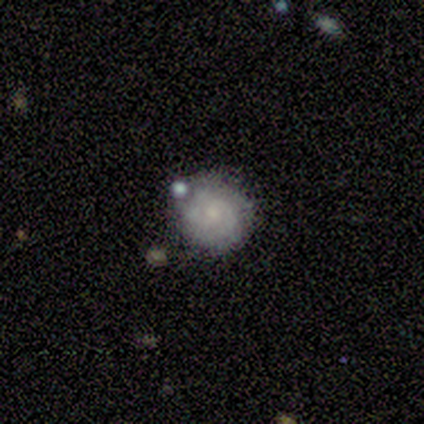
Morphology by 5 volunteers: smooth_or_featured: featured or disk (p=0.60) [alt: smooth p=0.40]
disk_edge_on: no (p=1.00)
bar: no (p=1.00)
has_spiral_arms: yes (p=0.67) [alt: no p=0.33]
spiral_winding: medium (p=1.00)
spiral_arm_count: 3 (p=0.50) [tied with: 4 p=0.50]
bulge_size: moderate (p=0.33) [tied with: small p=0.33, none p=0.33]
merging: none (p=0.60) [alt: minor disturbance p=0.20]